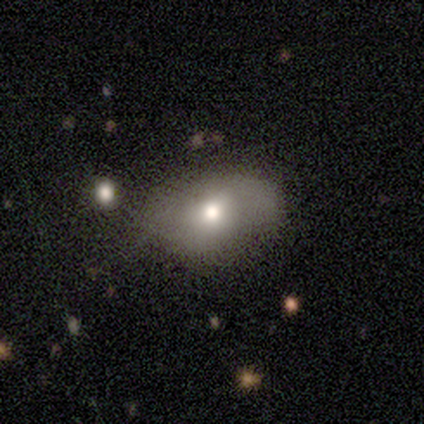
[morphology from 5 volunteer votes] type=smooth (60%); roundness=in between (100%); merging=none (67%).